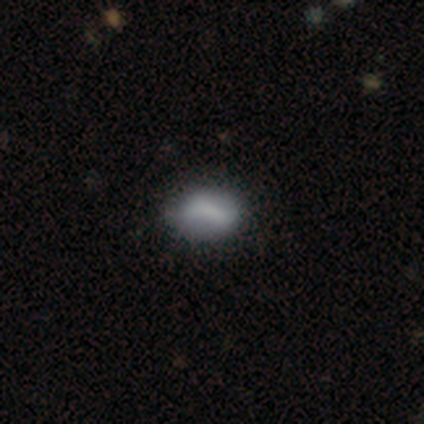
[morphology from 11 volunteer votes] Smooth or featured? 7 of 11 (64%) said smooth. How rounded? 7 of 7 (100%) said in between. Merging? 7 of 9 (78%) said none.